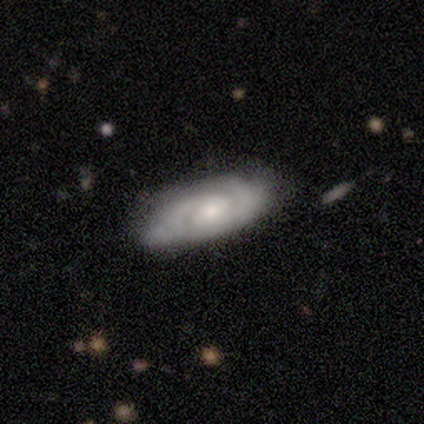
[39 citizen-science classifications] smooth_or_featured: featured or disk (p=0.82) [alt: smooth p=0.15]
disk_edge_on: no (p=0.94) [alt: yes p=0.06]
bar: no (p=0.70) [alt: weak p=0.23]
has_spiral_arms: yes (p=0.93) [alt: no p=0.07]
spiral_winding: tight (p=0.64) [alt: medium p=0.29]
spiral_arm_count: 2 (p=0.82) [alt: can't tell p=0.18]
bulge_size: small (p=0.43) [alt: moderate p=0.40]
merging: none (p=0.84) [alt: minor disturbance p=0.13]